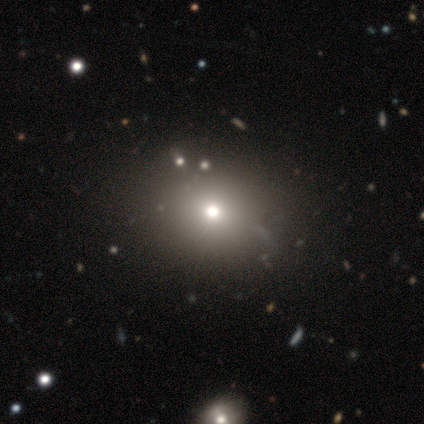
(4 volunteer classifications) Smooth or featured: star or artifact — 75% (featured or disk — 25%)